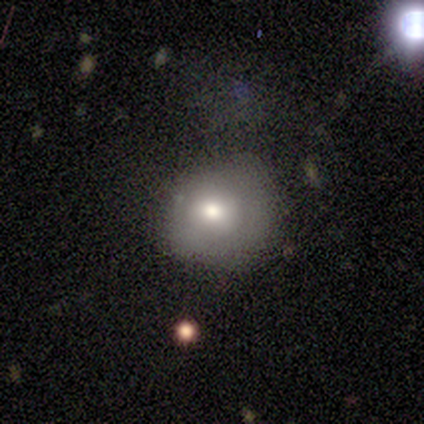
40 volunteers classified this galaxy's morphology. Smooth or featured?
  - smooth: 65% *
  - featured or disk: 25%
  - star or artifact: 10%
How rounded?
  - round: 77% *
  - in between: 23%
  - cigar-shaped: 0%
Merging?
  - none: 61% *
  - minor disturbance: 28%
  - major disturbance: 11%
  - merger: 0%